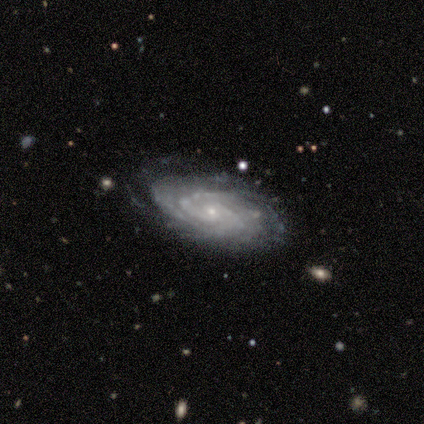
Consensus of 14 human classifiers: smooth-or-featured: featured or disk: 100% | smooth: 0% | star or artifact: 0%
  disk-edge-on: no: 100% | yes: 0%
    bar: no: 71% | weak: 21% | strong: 7%
    has-spiral-arms: yes: 93% | no: 7%
      spiral-winding: tight: 62% | medium: 38% | loose: 0%
      spiral-arm-count: can't tell: 46% | 2: 23% | 3: 15% | 4: 15% | 1: 0% | more than 4: 0%
    bulge-size: small: 93% | moderate: 7% | dominant: 0% | large: 0% | none: 0%
  merging: none: 79% | minor disturbance: 21% | major disturbance: 0% | merger: 0%